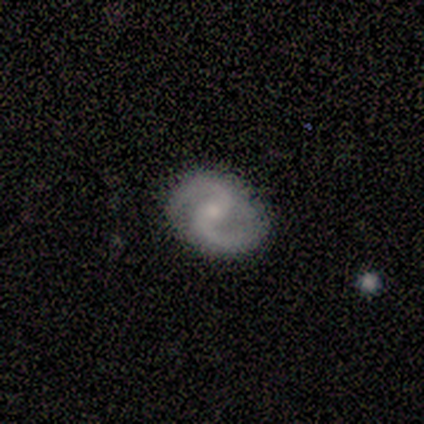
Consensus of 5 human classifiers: featured or disk 100%, smooth 0%, star or artifact 0%. Down the decision tree: edge-on disk — no (80%); bar — weak (100%); spiral arms — yes (100%); spiral arm count — 2 (75%); spiral winding — tight (50%); bulge size — small (50%); merging — none (60%).